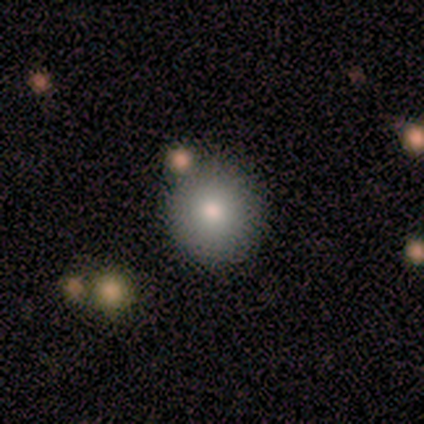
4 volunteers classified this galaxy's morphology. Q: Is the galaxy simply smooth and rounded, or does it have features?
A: smooth — 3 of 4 (75%).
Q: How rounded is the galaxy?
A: round — 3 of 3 (100%).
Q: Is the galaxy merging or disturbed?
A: none — 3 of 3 (100%).